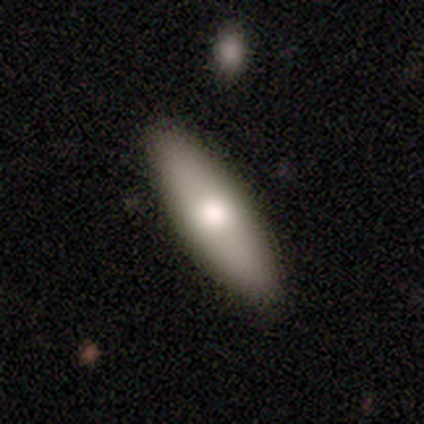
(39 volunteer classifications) smooth_or_featured: smooth (p=0.77) [alt: featured or disk p=0.23]
how_rounded: in between (p=0.67) [alt: cigar-shaped p=0.33]
merging: none (p=0.46) [alt: minor disturbance p=0.10]